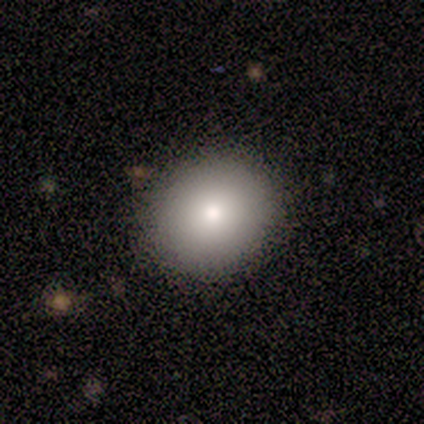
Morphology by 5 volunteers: Smooth or featured: smooth — 80% (featured or disk — 20%)
How rounded: round — 50% (tied with in between — 50%)
Merging: none — 100%